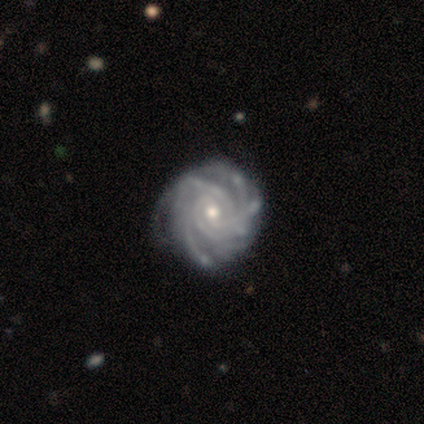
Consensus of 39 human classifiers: Smooth or featured?
  - featured or disk: 85% *
  - smooth: 8%
  - star or artifact: 8%
Edge-on disk?
  - no: 100% *
  - yes: 0%
Bar?
  - no: 48% *
  - weak: 39%
  - strong: 12%
Spiral arms?
  - yes: 97% *
  - no: 3%
Spiral winding?
  - tight: 75% *
  - medium: 22%
  - loose: 3%
Spiral arm count?
  - more than 4: 56% *
  - 4: 22%
  - can't tell: 16%
  - 3: 6%
  - 1: 0%
  - 2: 0%
Bulge size?
  - moderate: 48% * (tied)
  - small: 48% * (tied)
  - large: 3%
  - dominant: 0%
  - none: 0%
Merging?
  - none: 69% *
  - minor disturbance: 22%
  - major disturbance: 6%
  - merger: 3%